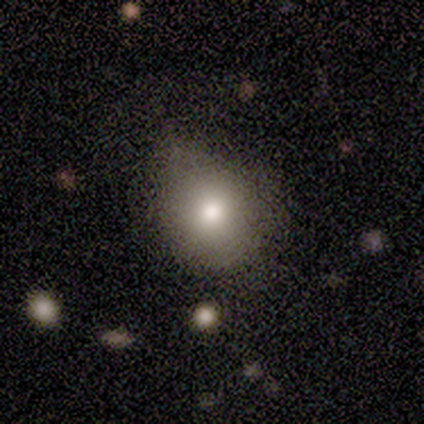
This appears to be a smooth galaxy with no disk features (100%) that is round (100%). Merging: none (80%).